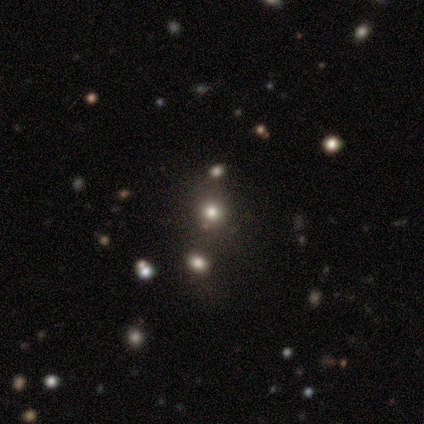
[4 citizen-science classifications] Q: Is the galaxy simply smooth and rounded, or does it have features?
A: smooth — 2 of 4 (50%, tied with star or artifact).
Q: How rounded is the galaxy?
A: round — 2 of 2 (100%).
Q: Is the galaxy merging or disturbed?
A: none — 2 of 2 (100%).